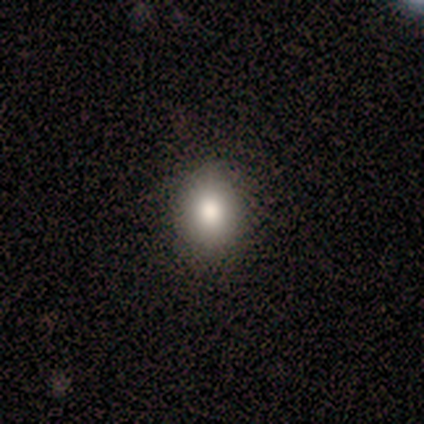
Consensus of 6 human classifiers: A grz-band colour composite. It shows a smooth galaxy with no disk features (67%) that is round (100%). Merging: none (67%).